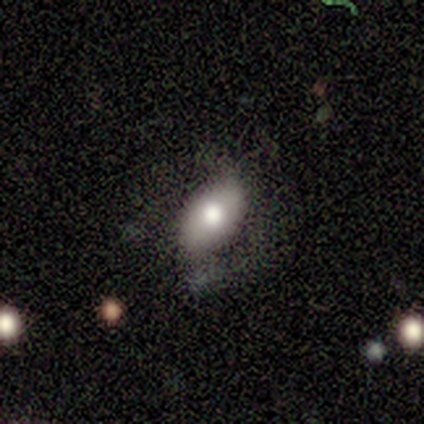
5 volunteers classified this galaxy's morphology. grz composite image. It shows a smooth galaxy with no disk features (60%) that is in between round and cigar-shaped (100%). Merging: none (60%).